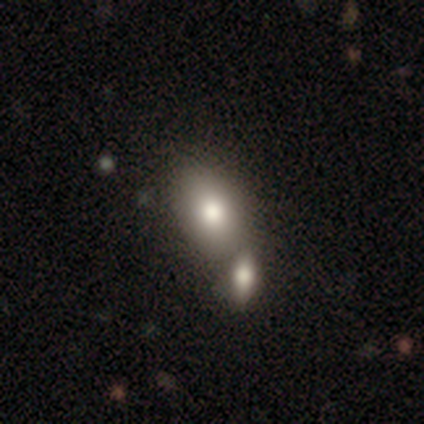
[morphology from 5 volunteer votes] Volunteers were most divided on "merging": merger: 75%, none: 25%, minor disturbance: 0%, major disturbance: 0%. More confident: how rounded — in between (100%); smooth or featured — smooth (80%).